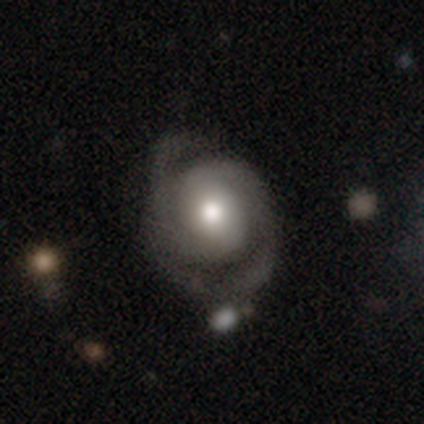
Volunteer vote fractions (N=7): A featured or disk galaxy (57%) with a weak bar (50%, tied with no), 2 (75%) tight (50%) spiral arms (100%) and a large central bulge (50%).

Vote fractions:
- Smooth or featured? featured or disk: 57% / smooth: 43% / star or artifact: 0%
- Edge-on disk? no: 100% / yes: 0%
- Bar? weak: 50% (tied) / no: 50% (tied) / strong: 0%
- Spiral arms? yes: 100% / no: 0%
- Spiral winding? tight: 50% / medium: 25% / loose: 25%
- Spiral arm count? 2: 75% / can't tell: 25% / 1: 0% / 3: 0% / 4: 0% / more than 4: 0%
- Bulge size? large: 50% / moderate: 25% / none: 25% / dominant: 0% / small: 0%
- Merging? none: 43% / minor disturbance: 29% / major disturbance: 14% / merger: 14%